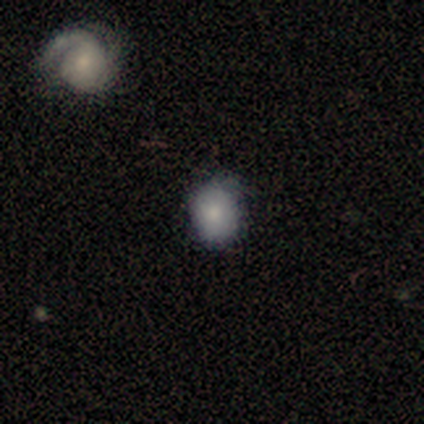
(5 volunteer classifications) smooth-or-featured: smooth: 40% (tied) | featured or disk: 40% (tied) | star or artifact: 20%
  how-rounded: in between: 100% | round: 0% | cigar-shaped: 0%
  merging: minor disturbance: 75% | none: 25% | major disturbance: 0% | merger: 0%